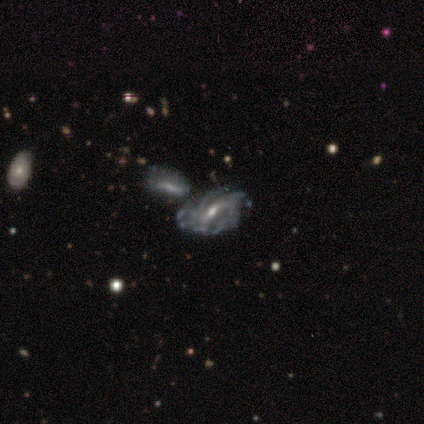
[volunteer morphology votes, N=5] Overall: featured or disk (80%). Edge-on disk: no (100%). Bar: weak (75%). Spiral arms: yes (100%). Spiral arm count: can't tell (50%; 2 25%). Spiral winding: tight (100%). Bulge size: small (75%). Merging: none (50%; minor disturbance 25%).